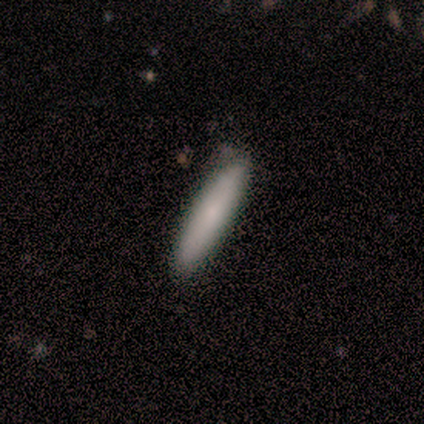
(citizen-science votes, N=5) A smooth galaxy with no disk features (80%) that is cigar-shaped (100%). Merging: none (80%).